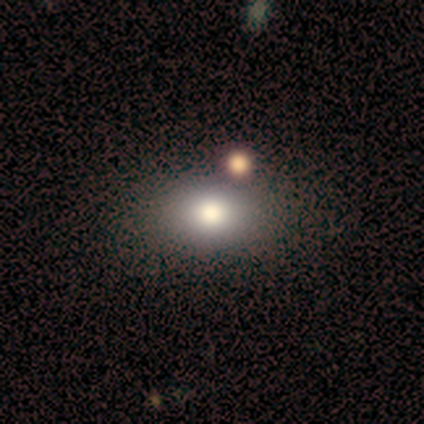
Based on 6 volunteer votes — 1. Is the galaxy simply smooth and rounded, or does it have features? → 50% smooth, 33% featured or disk, 17% star or artifact.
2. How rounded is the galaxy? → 100% in between, 0% round, 0% cigar-shaped.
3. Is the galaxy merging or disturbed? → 100% none, 0% minor disturbance, 0% major disturbance, 0% merger.